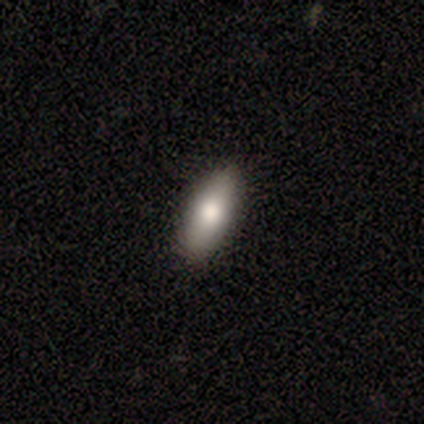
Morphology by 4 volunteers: Smooth or featured: smooth — 75% (featured or disk — 25%)
How rounded: in between — 100%
Merging: none — 100%